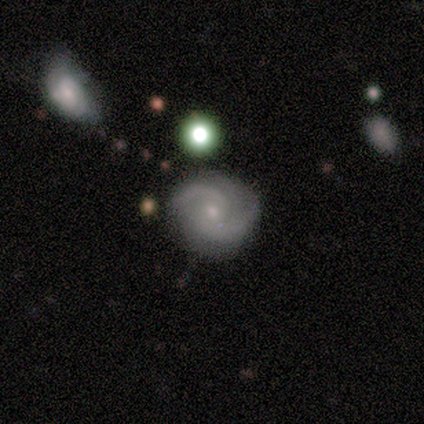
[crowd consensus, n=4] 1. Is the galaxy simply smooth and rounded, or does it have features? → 100% featured or disk, 0% smooth, 0% star or artifact.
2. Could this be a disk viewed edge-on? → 100% no, 0% yes.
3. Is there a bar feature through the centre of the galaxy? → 75% no, 25% weak, 0% strong.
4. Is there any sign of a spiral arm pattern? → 100% yes, 0% no.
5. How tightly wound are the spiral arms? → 75% tight, 25% medium, 0% loose.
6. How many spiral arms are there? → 100% 2, 0% 1, 0% 3, 0% 4, 0% more than 4, 0% can't tell.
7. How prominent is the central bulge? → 100% small, 0% dominant, 0% large, 0% moderate, 0% none.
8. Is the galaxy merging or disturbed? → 75% none, 25% merger, 0% minor disturbance, 0% major disturbance.